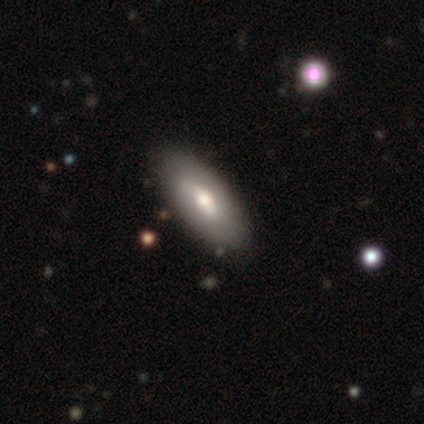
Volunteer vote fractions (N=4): A smooth galaxy with no disk features (50%) that is in between round and cigar-shaped (100%).

Vote fractions:
- Smooth or featured? smooth: 50% / featured or disk: 25% / star or artifact: 25%
- How rounded? in between: 100% / round: 0% / cigar-shaped: 0%
- Merging? none: 100% / minor disturbance: 0% / major disturbance: 0% / merger: 0%